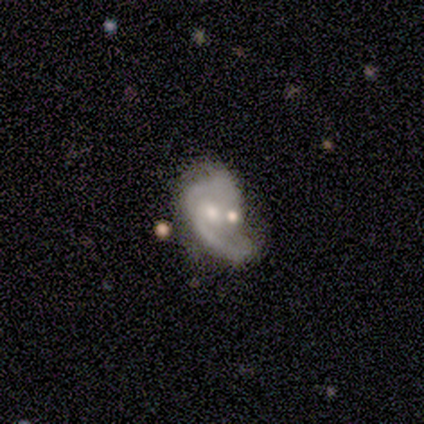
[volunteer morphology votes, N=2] This is clearly a featured or disk galaxy (100%). It is clearly not viewed edge-on (100%). Bar: clearly no (100%). Spiral arm pattern: clearly yes (100%). Spiral arm count: clearly 2 (100%). Spiral winding: clearly tight (100%). Central bulge: clearly small (100%). Merging: possibly none (50%, tied with merger).